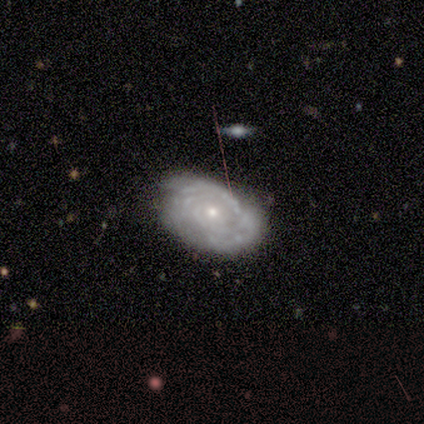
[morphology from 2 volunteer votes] Smooth or featured? featured or disk (100%)
Edge-on disk? yes (50%, tied with no)
Edge-on bulge? none (100%)
Merging? minor disturbance (100%)